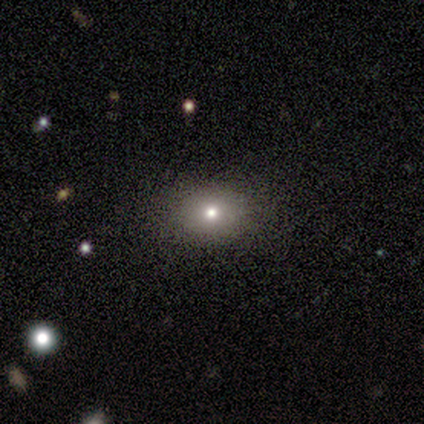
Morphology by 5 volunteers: Q: Smooth or featured?
A: smooth (100%)
Q: How rounded?
A: in between (60%); runner-up: round (40%)
Q: Merging?
A: none (100%)